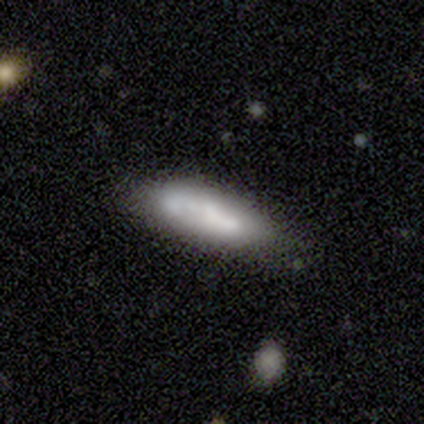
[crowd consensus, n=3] A smooth galaxy with no disk features (100%) that is cigar-shaped (67%). Merging: none (67%).